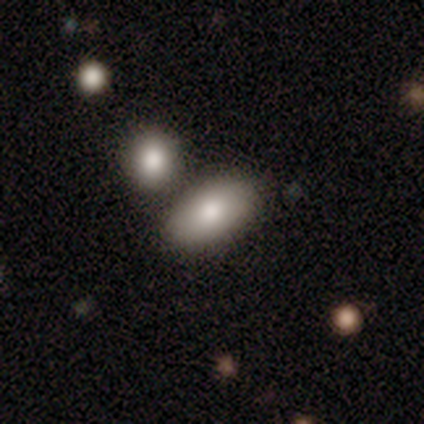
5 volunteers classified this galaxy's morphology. smooth_or_featured: smooth (p=0.40) [tied with: featured or disk p=0.40]
how_rounded: in between (p=1.00)
merging: none (p=0.75) [alt: merger p=0.25]